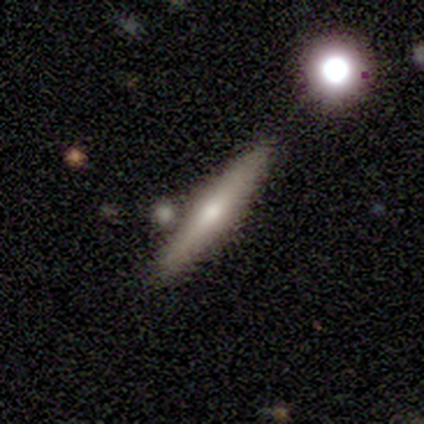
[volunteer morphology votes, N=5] Q: Smooth or featured?
A: smooth (60%); runner-up: featured or disk (40%)
Q: How rounded?
A: cigar-shaped (100%)
Q: Merging?
A: none (100%)